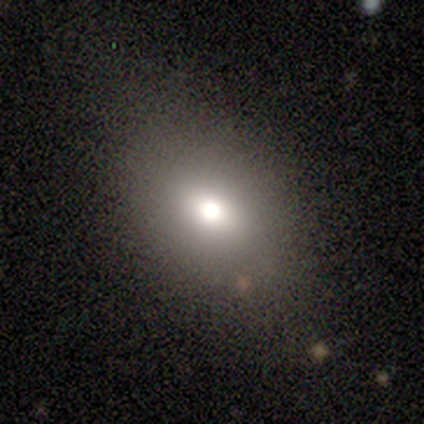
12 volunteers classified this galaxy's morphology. type=smooth (67%); roundness=in between (75%); merging=none (100%).